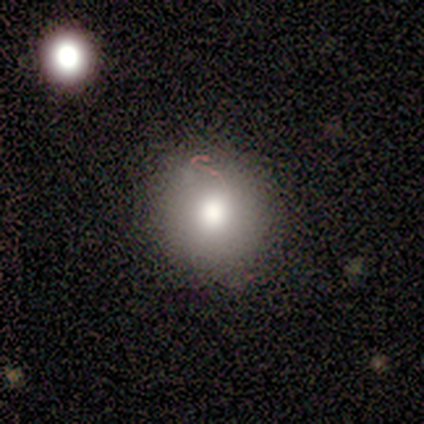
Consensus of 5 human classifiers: Morphology: type=smooth (80%); roundness=round (100%); merging=none (100%).